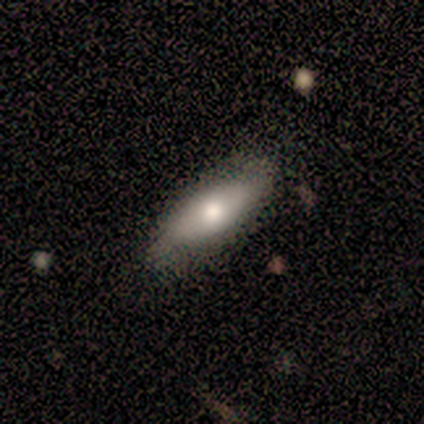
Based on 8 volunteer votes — Smooth or featured? 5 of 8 (62%) said smooth. How rounded? 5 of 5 (100%) said in between. Merging? 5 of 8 (62%) said minor disturbance.